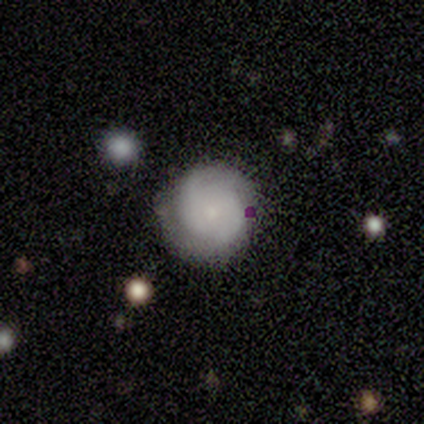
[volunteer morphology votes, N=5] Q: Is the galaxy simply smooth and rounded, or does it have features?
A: featured or disk — 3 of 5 (60%).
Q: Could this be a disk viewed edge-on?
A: no — 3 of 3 (100%).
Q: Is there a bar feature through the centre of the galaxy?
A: no — 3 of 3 (100%).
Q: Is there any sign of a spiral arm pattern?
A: yes — 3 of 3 (100%).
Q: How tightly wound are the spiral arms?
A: tight — 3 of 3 (100%).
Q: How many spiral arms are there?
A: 2 — 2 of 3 (67%).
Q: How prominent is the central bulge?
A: small — 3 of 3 (100%).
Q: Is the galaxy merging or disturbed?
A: none — 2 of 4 (50%, tied with minor disturbance).